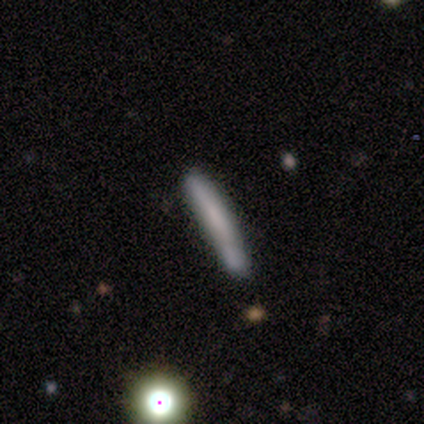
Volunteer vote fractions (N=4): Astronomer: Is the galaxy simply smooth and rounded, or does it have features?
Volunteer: smooth — 75%.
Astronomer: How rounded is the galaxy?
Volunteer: cigar-shaped — 100%.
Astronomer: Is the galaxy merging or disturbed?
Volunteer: none — 100%.